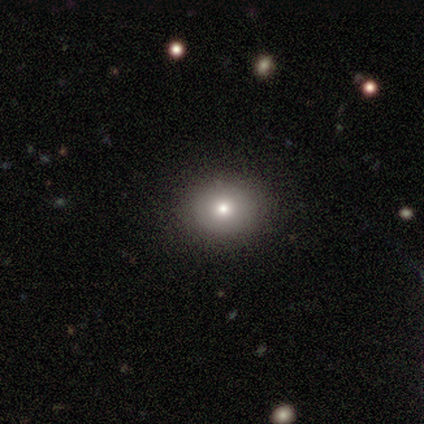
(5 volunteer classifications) Volunteers were most divided on "how rounded": in between: 75%, round: 25%, cigar-shaped: 0%. More confident: merging — none (100%); smooth or featured — smooth (80%).